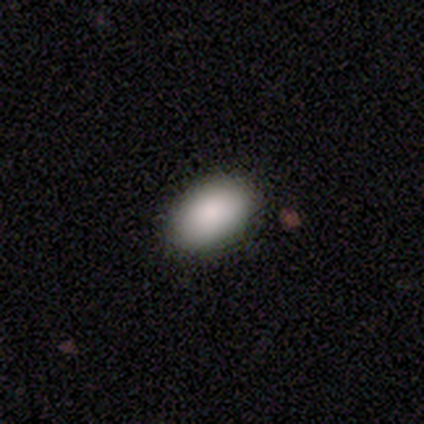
Overall: smooth (100%). How rounded: in between (100%). Merging: none (100%).